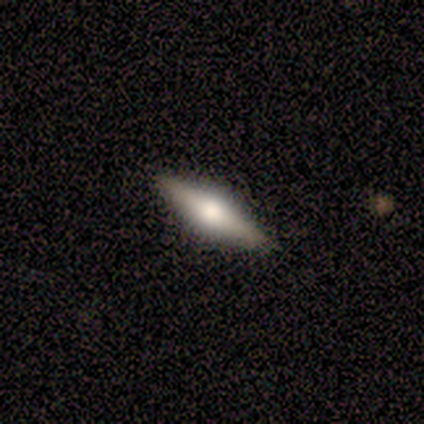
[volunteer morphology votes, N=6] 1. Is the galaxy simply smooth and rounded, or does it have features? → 67% featured or disk, 33% smooth, 0% star or artifact.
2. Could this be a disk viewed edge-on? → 100% yes, 0% no.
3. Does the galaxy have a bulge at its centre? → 75% rounded, 25% none, 0% boxy.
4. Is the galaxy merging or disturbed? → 100% none, 0% minor disturbance, 0% major disturbance, 0% merger.